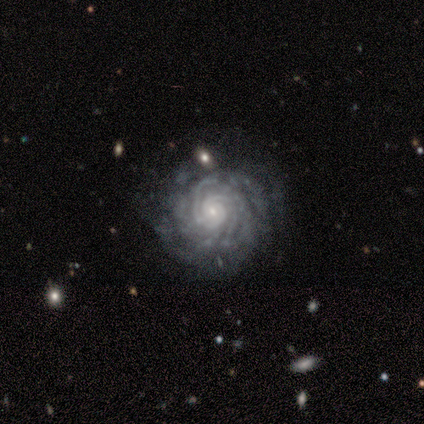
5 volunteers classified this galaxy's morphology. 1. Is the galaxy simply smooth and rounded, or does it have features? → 100% featured or disk, 0% smooth, 0% star or artifact.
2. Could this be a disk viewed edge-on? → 100% no, 0% yes.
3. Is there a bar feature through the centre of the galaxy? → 60% no, 40% weak, 0% strong.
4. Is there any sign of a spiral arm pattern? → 100% yes, 0% no.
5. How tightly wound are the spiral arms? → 80% tight, 20% medium, 0% loose.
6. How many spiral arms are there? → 40% more than 4 (tied), 40% can't tell (tied), 20% 3, 0% 1, 0% 2, 0% 4.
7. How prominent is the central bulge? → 80% small, 20% moderate, 0% dominant, 0% large, 0% none.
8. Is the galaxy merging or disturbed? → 80% none, 20% major disturbance, 0% minor disturbance, 0% merger.